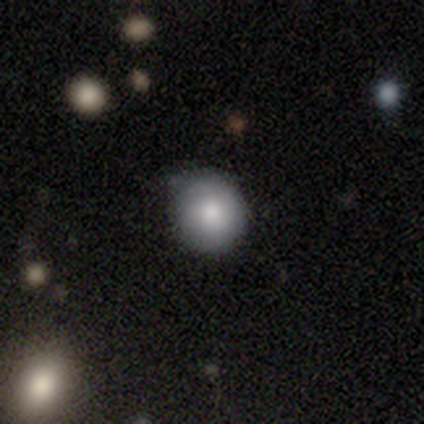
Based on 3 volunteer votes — Smooth or featured? 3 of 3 (100%) said smooth. How rounded? 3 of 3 (100%) said round. Merging? 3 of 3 (100%) said none.